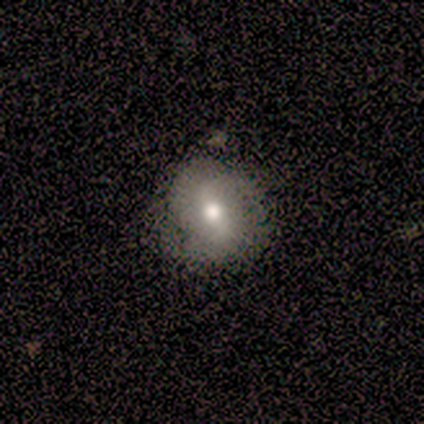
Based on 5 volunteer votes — Smooth or featured? smooth (60%)
How rounded? round (100%)
Merging? none (100%)